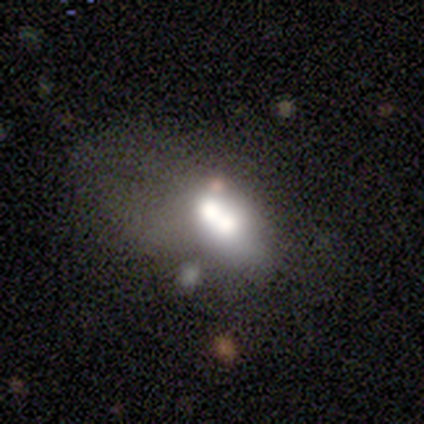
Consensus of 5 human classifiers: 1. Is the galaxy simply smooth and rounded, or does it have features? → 40% smooth (tied), 40% featured or disk (tied), 20% star or artifact.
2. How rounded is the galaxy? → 50% round (tied), 50% in between (tied), 0% cigar-shaped.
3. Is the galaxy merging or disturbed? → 50% major disturbance, 25% minor disturbance, 25% merger, 0% none.